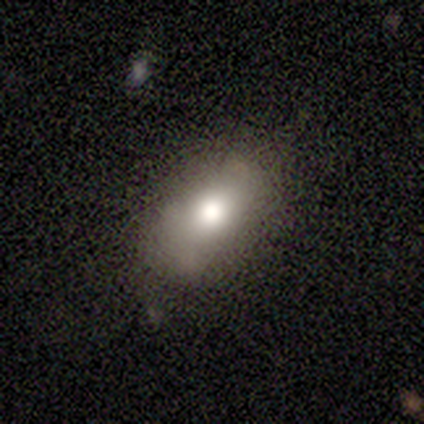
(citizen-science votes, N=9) smooth 67%, featured or disk 22%, star or artifact 11%. Down the decision tree: how rounded — in between (83%); merging — none (50%, tied with minor disturbance).